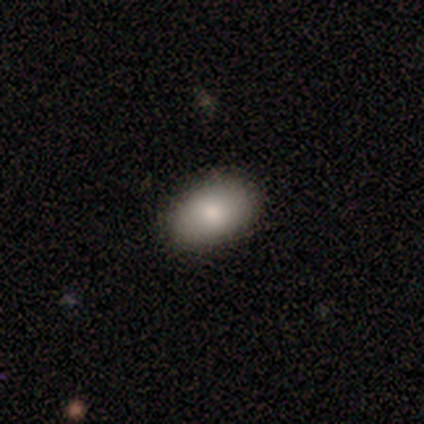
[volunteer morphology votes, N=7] Q: Smooth or featured?
A: smooth (100%)
Q: How rounded?
A: in between (100%)
Q: Merging?
A: none (100%)